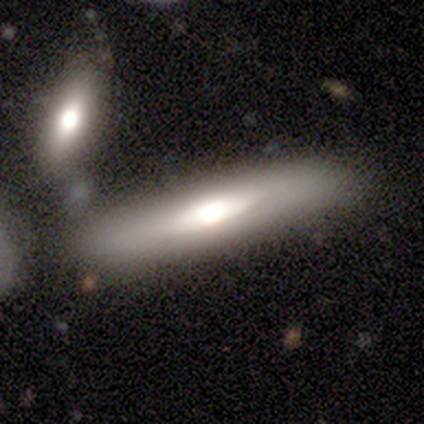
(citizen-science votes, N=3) Smooth or featured?
  - featured or disk: 67% *
  - smooth: 33%
  - star or artifact: 0%
Edge-on disk?
  - yes: 50% * (tied)
  - no: 50% * (tied)
Edge-on bulge?
  - rounded: 100% *
  - boxy: 0%
  - none: 0%
Merging?
  - none: 100% *
  - minor disturbance: 0%
  - major disturbance: 0%
  - merger: 0%